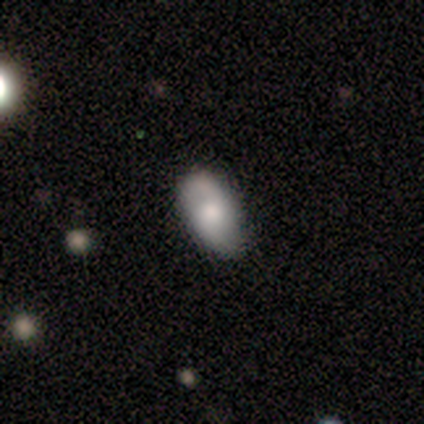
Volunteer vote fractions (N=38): Smooth or featured? smooth (47%, tied with featured or disk)
How rounded? in between (89%)
Merging? none (78%)